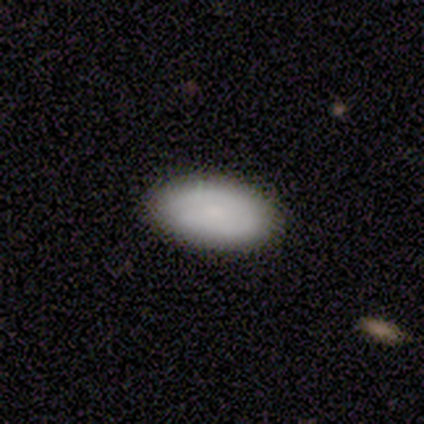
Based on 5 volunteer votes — Smooth or featured?
  - smooth: 100% *
  - featured or disk: 0%
  - star or artifact: 0%
How rounded?
  - in between: 100% *
  - round: 0%
  - cigar-shaped: 0%
Merging?
  - none: 60% *
  - minor disturbance: 40%
  - major disturbance: 0%
  - merger: 0%